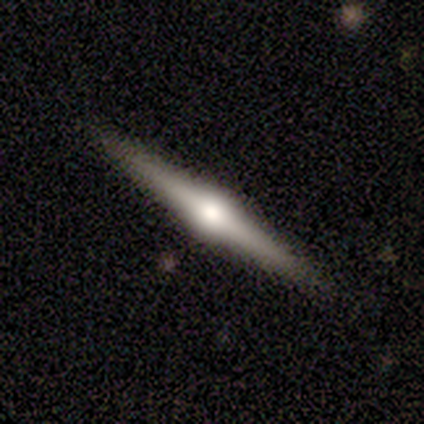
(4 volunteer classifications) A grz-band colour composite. It shows a featured or disk galaxy (100%) viewed edge-on (100%) with a rounded central bulge (75%). Merging: none (50%).